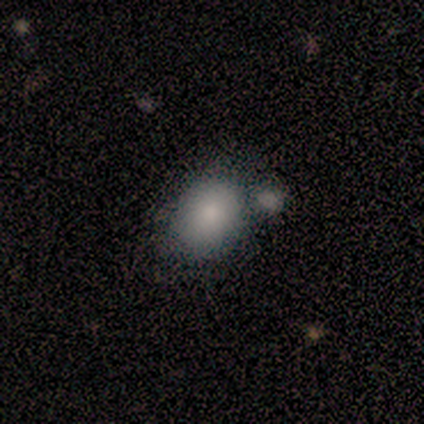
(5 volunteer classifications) smooth_or_featured: smooth (p=1.00)
how_rounded: in between (p=0.60) [alt: round p=0.40]
merging: none (p=0.60) [alt: major disturbance p=0.20]